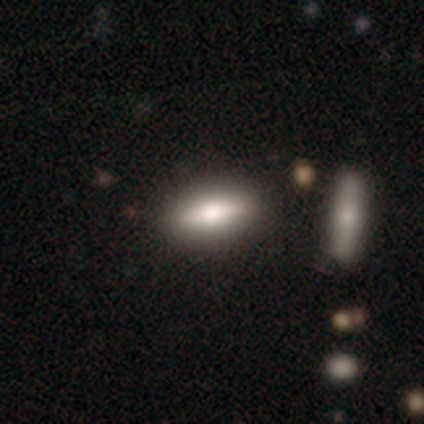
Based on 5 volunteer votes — Smooth or featured: featured or disk — 60% (smooth — 20%)
Edge-on disk: yes — 100%
Edge-on bulge: rounded — 100%
Merging: none — 75% (minor disturbance — 25%)